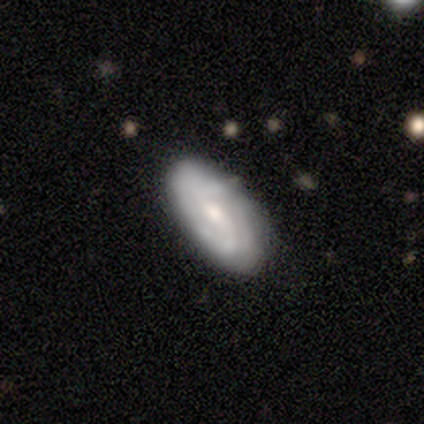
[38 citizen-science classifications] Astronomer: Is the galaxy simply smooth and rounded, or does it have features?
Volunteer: featured or disk — 58% (runner-up: smooth, 37%).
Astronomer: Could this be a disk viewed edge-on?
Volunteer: no — 82%.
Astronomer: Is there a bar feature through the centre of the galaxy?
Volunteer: weak — 72%.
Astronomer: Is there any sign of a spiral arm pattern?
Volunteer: yes — 100%.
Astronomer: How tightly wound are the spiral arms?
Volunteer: medium — 50% (runner-up: tight, 33%).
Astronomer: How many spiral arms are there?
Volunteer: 2 — 44% (runner-up: can't tell, 39%).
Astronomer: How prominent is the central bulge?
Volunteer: moderate — 67%.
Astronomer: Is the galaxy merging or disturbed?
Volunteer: none — 81%.